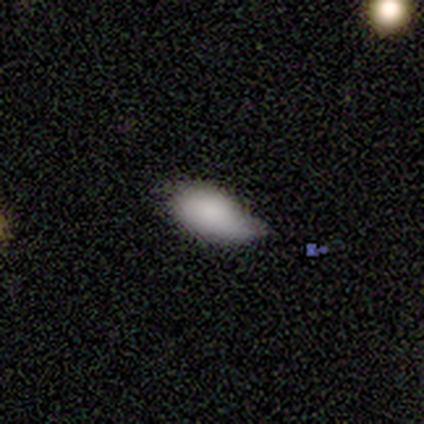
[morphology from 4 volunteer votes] Q: Smooth or featured?
A: smooth (100%)
Q: How rounded?
A: in between (100%)
Q: Merging?
A: minor disturbance (50%); runner-up: none (25%)